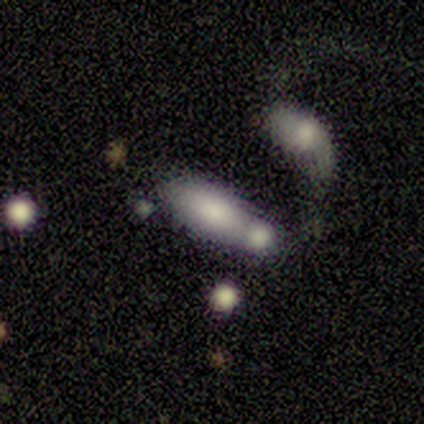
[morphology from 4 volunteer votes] A smooth galaxy with no disk features (100%) that is in between round and cigar-shaped (50%, tied with cigar-shaped).

Vote fractions:
- Smooth or featured? smooth: 100% / featured or disk: 0% / star or artifact: 0%
- How rounded? in between: 50% (tied) / cigar-shaped: 50% (tied) / round: 0%
- Merging? merger: 100% / none: 0% / minor disturbance: 0% / major disturbance: 0%